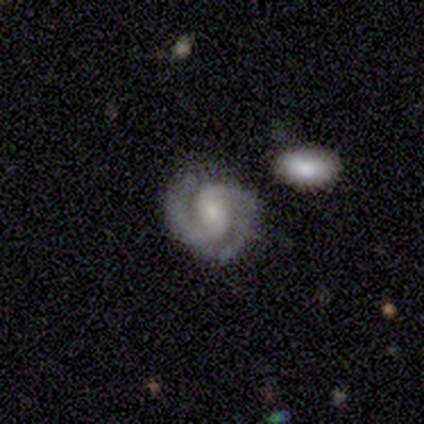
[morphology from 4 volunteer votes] Volunteers were most divided on "bar" (3-way tie): strong: 33%, weak: 33%, no: 33%. More confident: edge-on disk — no (100%); spiral arms — yes (100%); spiral winding — tight (100%); spiral arm count — 2 (100%); smooth or featured — featured or disk (75%); merging — none (75%); bulge size — small (67%).